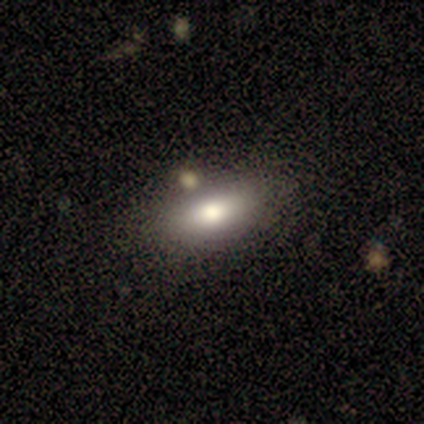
Volunteers were most divided on "merging": none: 72%, minor disturbance: 19%, major disturbance: 6%, merger: 3%. More confident: how rounded — in between (87%); smooth or featured — smooth (77%).